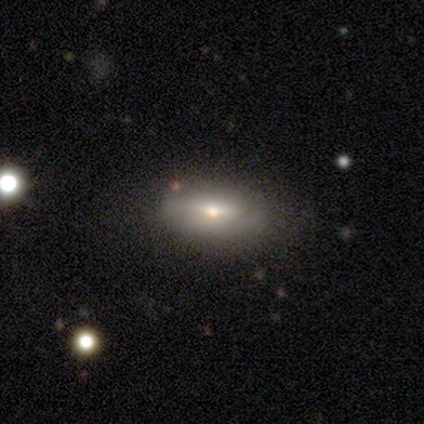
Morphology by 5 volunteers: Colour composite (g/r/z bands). It shows a smooth galaxy with no disk features (80%) that is in between round and cigar-shaped (100%). Merging: none (80%).